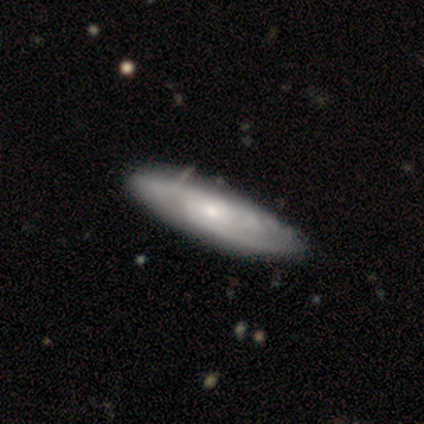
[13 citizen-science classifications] smooth_or_featured: featured or disk (p=0.85) [alt: smooth p=0.15]
disk_edge_on: no (p=0.91) [alt: yes p=0.09]
bar: no (p=0.80) [alt: weak p=0.20]
has_spiral_arms: yes (p=1.00)
spiral_winding: tight (p=0.70) [alt: medium p=0.30]
spiral_arm_count: can't tell (p=0.60) [alt: 2 p=0.30]
bulge_size: small (p=0.60) [alt: moderate p=0.40]
merging: none (p=0.92) [alt: minor disturbance p=0.08]